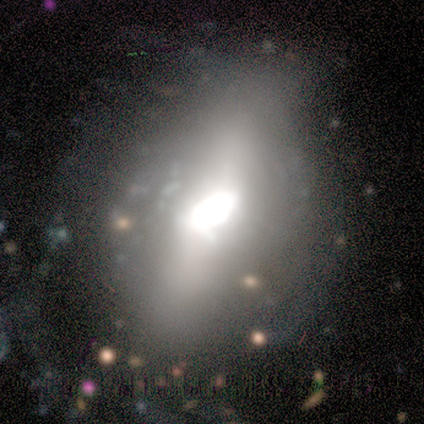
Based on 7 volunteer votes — Volunteers were most divided on "how rounded" (2-way tie): round: 50%, in between: 50%, cigar-shaped: 0%. More confident: merging — none (71%); smooth or featured — smooth (57%).